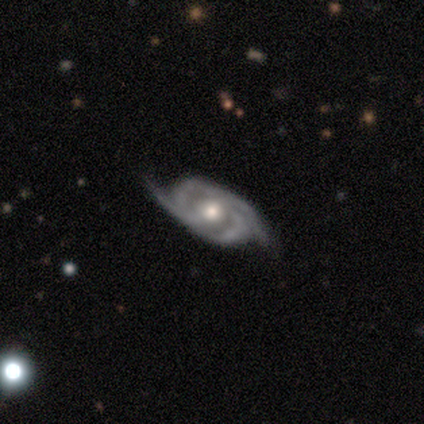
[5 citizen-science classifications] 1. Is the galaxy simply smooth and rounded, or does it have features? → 100% featured or disk, 0% smooth, 0% star or artifact.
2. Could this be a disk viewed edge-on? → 100% no, 0% yes.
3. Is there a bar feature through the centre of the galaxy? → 80% no, 20% weak, 0% strong.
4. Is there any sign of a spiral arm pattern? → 100% yes, 0% no.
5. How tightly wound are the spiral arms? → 40% tight (tied), 40% loose (tied), 20% medium.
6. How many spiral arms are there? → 80% 2, 20% 3, 0% 1, 0% 4, 0% more than 4, 0% can't tell.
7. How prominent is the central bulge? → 80% moderate, 20% small, 0% dominant, 0% large, 0% none.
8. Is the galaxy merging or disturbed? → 80% none, 20% minor disturbance, 0% major disturbance, 0% merger.